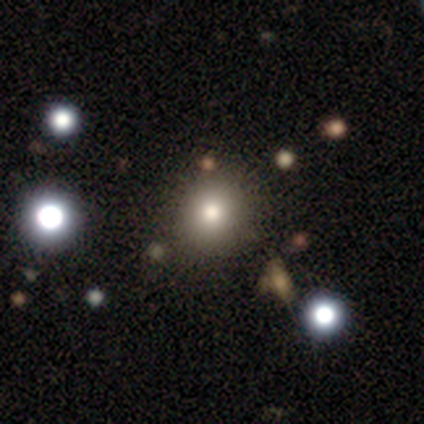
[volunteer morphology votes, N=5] smooth_or_featured: smooth (p=0.80) [alt: star or artifact p=0.20]
how_rounded: round (p=1.00)
merging: none (p=1.00)